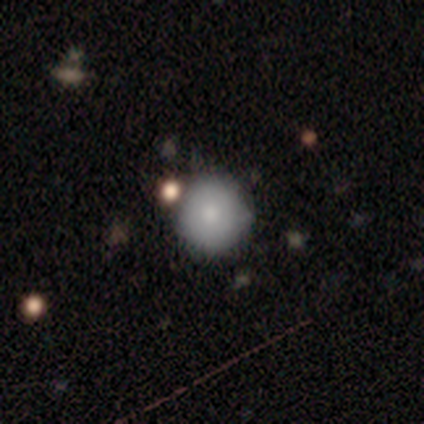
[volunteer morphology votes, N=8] Volunteers were most divided on "merging": none: 75%, minor disturbance: 25%, major disturbance: 0%, merger: 0%. More confident: smooth or featured — smooth (88%); how rounded — round (86%).